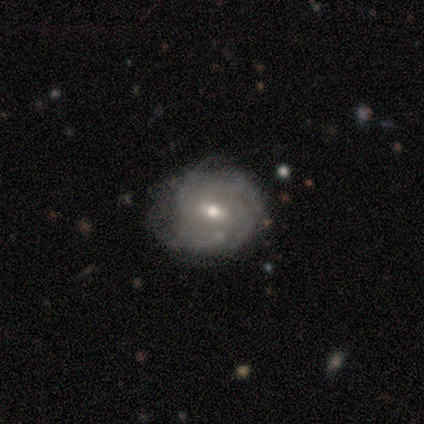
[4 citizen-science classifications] Smooth or featured? featured or disk (100%)
Edge-on disk? no (100%)
Bar? no (50%)
Spiral arms? yes (100%)
Spiral winding? tight (75%)
Spiral arm count? can't tell (100%)
Bulge size? moderate (50%, tied with small)
Merging? none (75%)